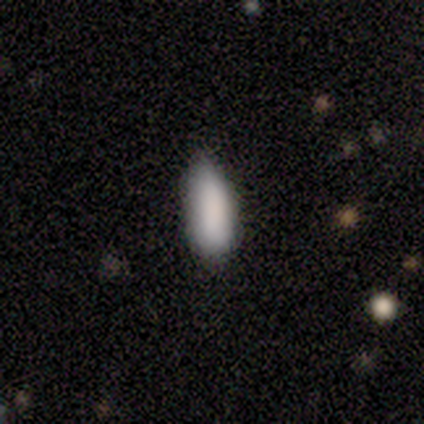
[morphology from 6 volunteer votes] Smooth or featured: smooth — 100%
How rounded: in between — 83% (cigar-shaped — 17%)
Merging: none — 83% (minor disturbance — 17%)